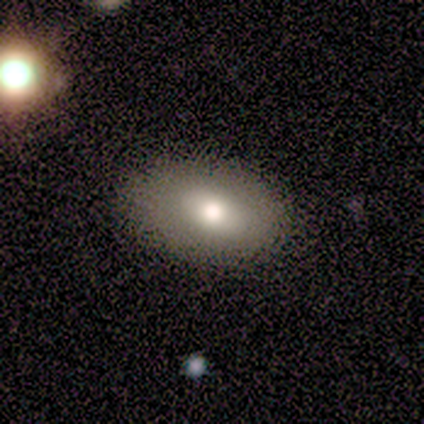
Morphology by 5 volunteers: Smooth or featured? smooth (80%)
How rounded? in between (75%)
Merging? none (60%)